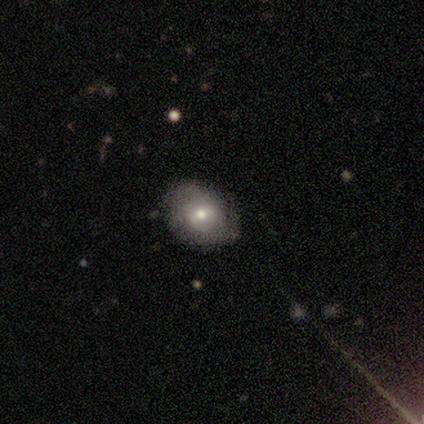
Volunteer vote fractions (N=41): This is possibly a smooth galaxy (46%, tied with featured or disk). How rounded: possibly round (47%, tied with in between). Merging: clearly none (84%).